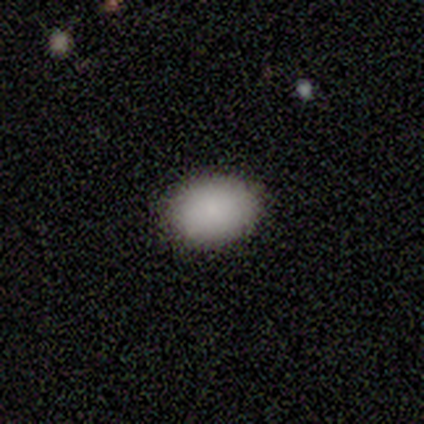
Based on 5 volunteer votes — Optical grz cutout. It shows a smooth galaxy with no disk features (100%) that is in between round and cigar-shaped (80%). Merging: none (100%).